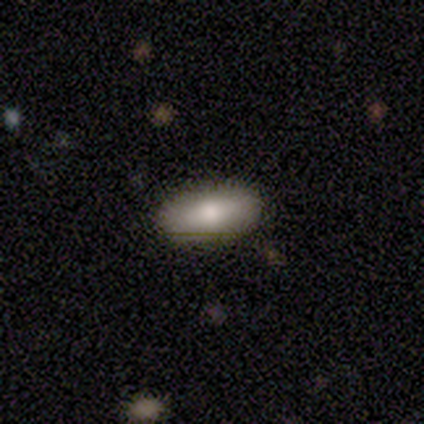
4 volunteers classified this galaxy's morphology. smooth 75%, star or artifact 25%, featured or disk 0%. Down the decision tree: how rounded — in between (100%); merging — none (100%).